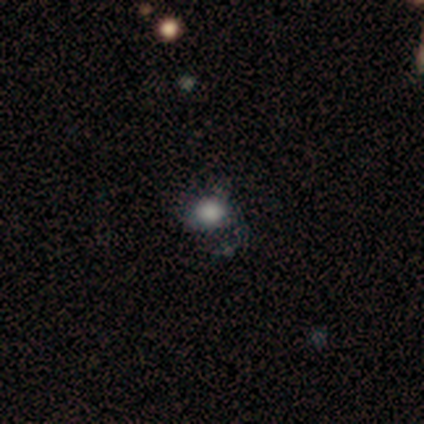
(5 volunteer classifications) Morphology: type=smooth (80%); roundness=round (75%); merging=none (75%).